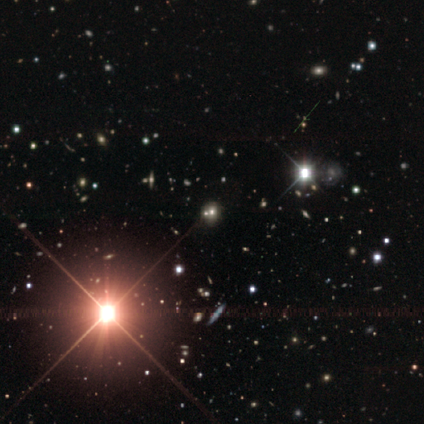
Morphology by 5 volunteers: smooth-or-featured: star or artifact: 80% | featured or disk: 20% | smooth: 0%